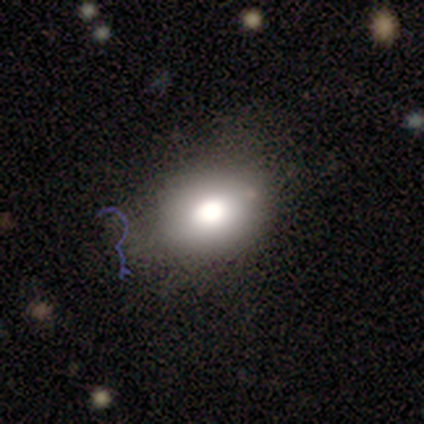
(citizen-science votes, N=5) A smooth galaxy with no disk features (80%) that is in between round and cigar-shaped (100%).

Vote fractions:
- Smooth or featured? smooth: 80% / star or artifact: 20% / featured or disk: 0%
- How rounded? in between: 100% / round: 0% / cigar-shaped: 0%
- Merging? none: 50% (tied) / minor disturbance: 50% (tied) / major disturbance: 0% / merger: 0%